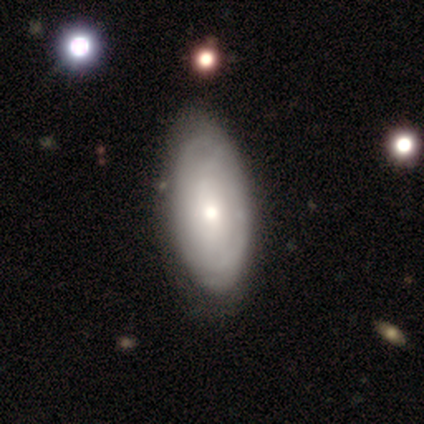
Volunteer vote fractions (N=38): featured or disk 58%, smooth 37%, star or artifact 5%. Down the decision tree: edge-on disk — no (86%); bar — no (68%); spiral arms — no (63%); bulge size — moderate (58%); merging — none (50%).